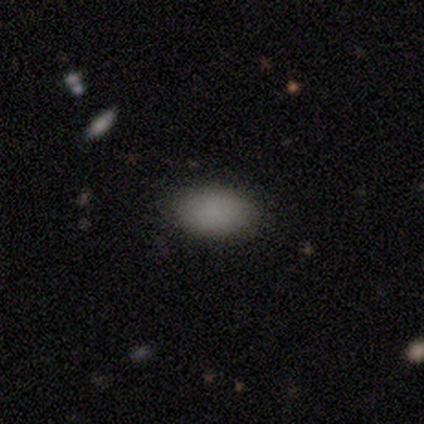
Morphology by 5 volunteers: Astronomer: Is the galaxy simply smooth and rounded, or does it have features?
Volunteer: smooth — 100%.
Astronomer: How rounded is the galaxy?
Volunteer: in between — 100%.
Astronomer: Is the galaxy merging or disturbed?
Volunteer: none — 100%.